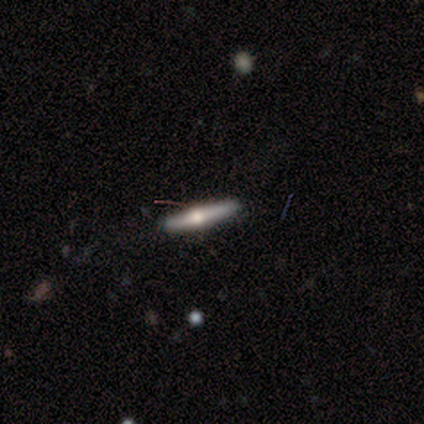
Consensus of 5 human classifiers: smooth-or-featured: featured or disk: 80% | smooth: 20% | star or artifact: 0%
  disk-edge-on: yes: 100% | no: 0%
    edge-on-bulge: rounded: 75% | boxy: 25% | none: 0%
  merging: none: 80% | minor disturbance: 20% | major disturbance: 0% | merger: 0%